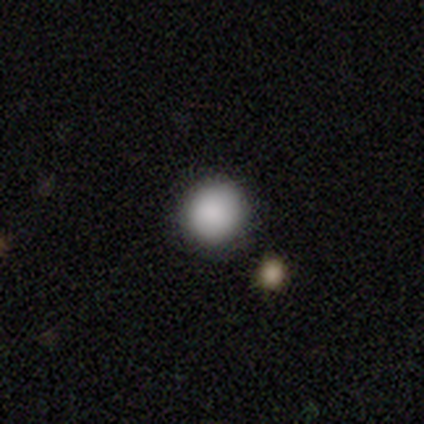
Q: Smooth or featured?
A: smooth (80%); runner-up: star or artifact (20%)
Q: How rounded?
A: round (100%)
Q: Merging?
A: none (100%)